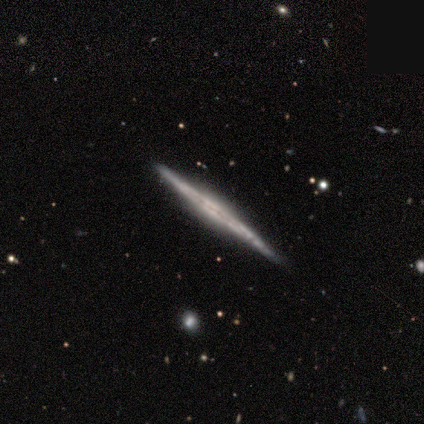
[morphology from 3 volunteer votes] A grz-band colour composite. It shows a featured or disk galaxy (100%) viewed edge-on (100%) with no central bulge (67%). Merging: none (100%).